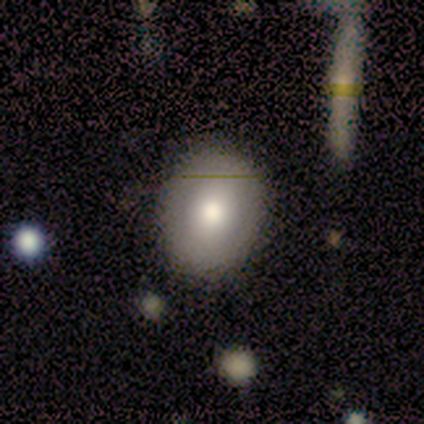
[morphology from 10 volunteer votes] smooth_or_featured: smooth (p=0.80) [alt: featured or disk p=0.10]
how_rounded: in between (p=0.62) [alt: round p=0.38]
merging: none (p=0.78) [alt: major disturbance p=0.22]